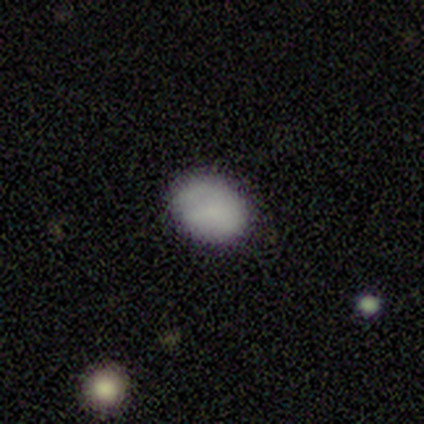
Smooth or featured? 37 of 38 (97%) said smooth. How rounded? 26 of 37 (70%) said in between. Merging? 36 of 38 (95%) said none.